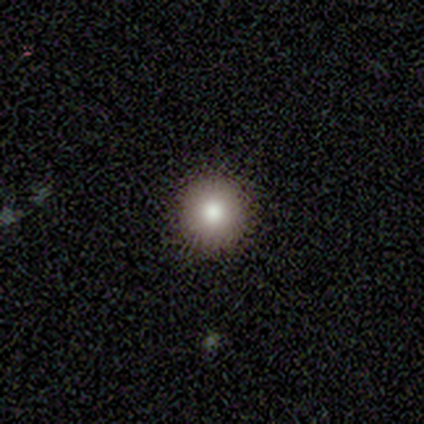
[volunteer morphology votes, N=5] Smooth or featured?
  - smooth: 60% *
  - featured or disk: 40%
  - star or artifact: 0%
How rounded?
  - round: 100% *
  - in between: 0%
  - cigar-shaped: 0%
Merging?
  - none: 100% *
  - minor disturbance: 0%
  - major disturbance: 0%
  - merger: 0%